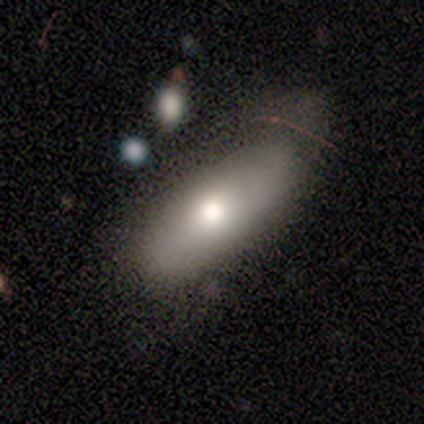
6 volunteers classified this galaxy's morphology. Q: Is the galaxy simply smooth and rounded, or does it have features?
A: smooth — 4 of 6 (67%).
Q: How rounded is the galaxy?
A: in between — 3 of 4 (75%).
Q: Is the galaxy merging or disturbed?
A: none — 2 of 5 (40%, tied with minor disturbance).